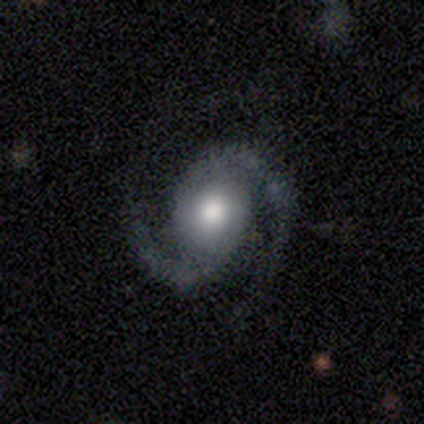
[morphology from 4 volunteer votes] Overall: featured or disk (75%). Edge-on disk: no (100%). Bar: no (100%). Spiral arms: yes (100%). Spiral arm count: 2 (100%). Spiral winding: medium (67%; tight 33%). Bulge size: moderate (100%). Merging: none (100%).